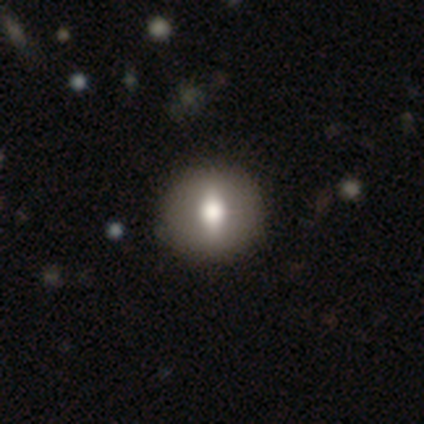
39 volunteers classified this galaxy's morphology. This appears to be a smooth galaxy with no disk features (59%) that is round (74%). Merging: none (72%).